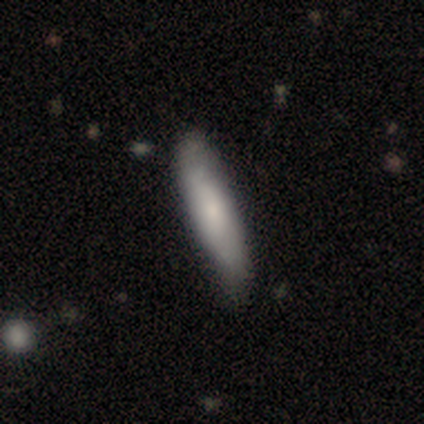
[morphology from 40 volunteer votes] Overall: smooth (70%). How rounded: cigar-shaped (75%). Merging: none (68%).